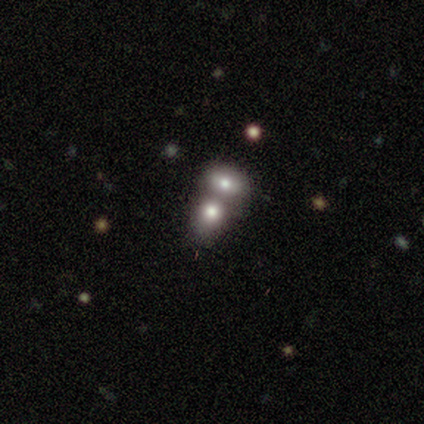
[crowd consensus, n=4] Q: Smooth or featured?
A: featured or disk (50%); runner-up: smooth (25%)
Q: Edge-on disk?
A: no (100%)
Q: Bar?
A: weak (50%); tied with: no (50%)
Q: Spiral arms?
A: yes (50%); tied with: no (50%)
Q: Spiral winding?
A: medium (100%)
Q: Spiral arm count?
A: 1 (100%)
Q: Bulge size?
A: large (50%); tied with: none (50%)
Q: Merging?
A: none (67%); runner-up: minor disturbance (33%)